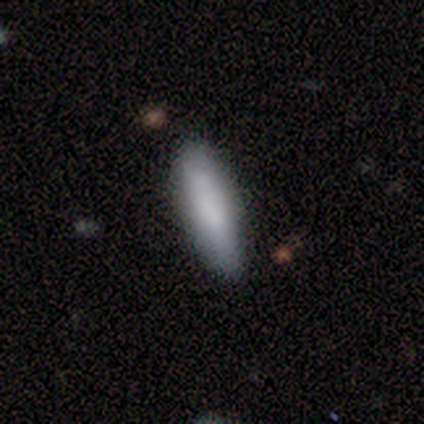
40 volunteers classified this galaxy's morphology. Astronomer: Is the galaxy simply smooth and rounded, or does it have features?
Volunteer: smooth — 85%.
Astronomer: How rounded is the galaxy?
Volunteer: in between — 50%, tied with cigar-shaped at 50%.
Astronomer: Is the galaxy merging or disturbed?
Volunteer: none — 79%.